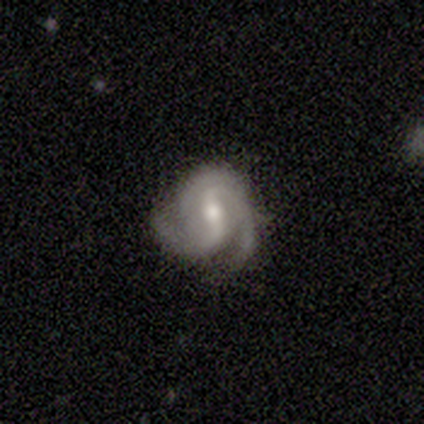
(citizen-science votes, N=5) A featured or disk galaxy (100%) with a strong bar (60%), 2 (80%) tight (80%) spiral arms (100%) and a moderate central bulge (60%).

Vote fractions:
- Smooth or featured? featured or disk: 100% / smooth: 0% / star or artifact: 0%
- Edge-on disk? no: 100% / yes: 0%
- Bar? strong: 60% / weak: 20% / no: 20%
- Spiral arms? yes: 100% / no: 0%
- Spiral winding? tight: 80% / medium: 20% / loose: 0%
- Spiral arm count? 2: 80% / 3: 20% / 1: 0% / 4: 0% / more than 4: 0% / can't tell: 0%
- Bulge size? moderate: 60% / small: 20% / none: 20% / dominant: 0% / large: 0%
- Merging? none: 80% / minor disturbance: 20% / major disturbance: 0% / merger: 0%